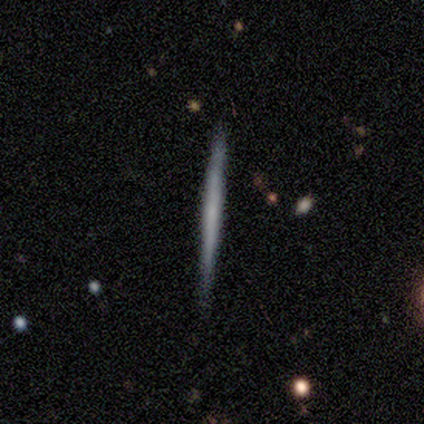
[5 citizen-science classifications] Smooth or featured? 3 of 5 (60%) said smooth. How rounded? 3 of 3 (100%) said cigar-shaped. Merging? 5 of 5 (100%) said none.